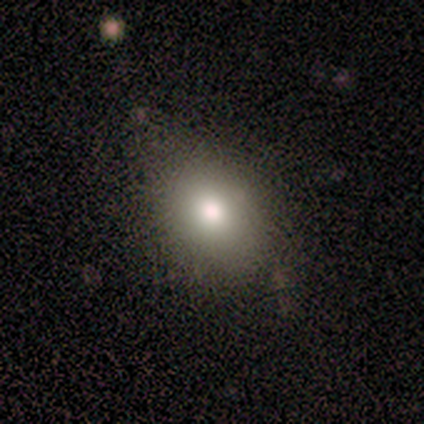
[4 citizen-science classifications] Smooth or featured?
  - smooth: 50% * (tied)
  - star or artifact: 50% * (tied)
  - featured or disk: 0%
How rounded?
  - in between: 100% *
  - round: 0%
  - cigar-shaped: 0%
Merging?
  - none: 50% * (tied)
  - major disturbance: 50% * (tied)
  - minor disturbance: 0%
  - merger: 0%